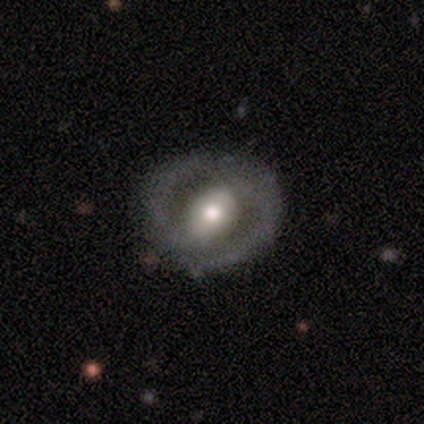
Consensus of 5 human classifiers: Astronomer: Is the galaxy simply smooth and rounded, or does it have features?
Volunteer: featured or disk — 80%.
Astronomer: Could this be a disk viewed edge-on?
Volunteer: no — 100%.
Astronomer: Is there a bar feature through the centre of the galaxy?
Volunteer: no — 50%.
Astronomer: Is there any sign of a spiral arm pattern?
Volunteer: yes — 50%, tied with no at 50%.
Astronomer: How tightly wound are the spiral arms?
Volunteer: medium — 100%.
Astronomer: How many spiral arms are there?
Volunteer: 2 — 100%.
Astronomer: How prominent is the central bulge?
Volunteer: moderate — 100%.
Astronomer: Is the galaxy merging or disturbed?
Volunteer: none — 100%.